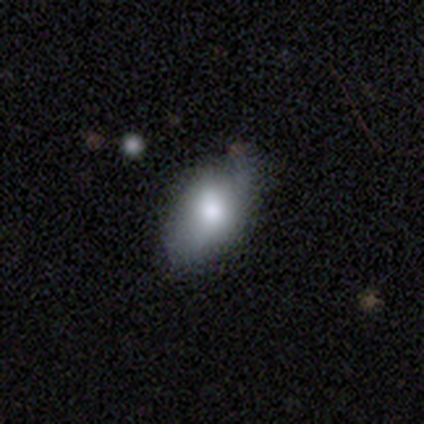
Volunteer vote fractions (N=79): smooth_or_featured: smooth (p=0.73) [alt: featured or disk p=0.22]
how_rounded: in between (p=0.95) [alt: cigar-shaped p=0.03]
merging: none (p=0.25) [alt: minor disturbance p=0.23]